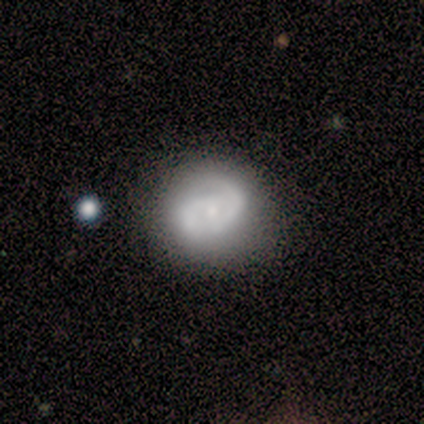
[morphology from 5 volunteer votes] type=smooth (40%, tied with featured or disk); roundness=round (50%, tied with cigar-shaped); merging=none (50%).